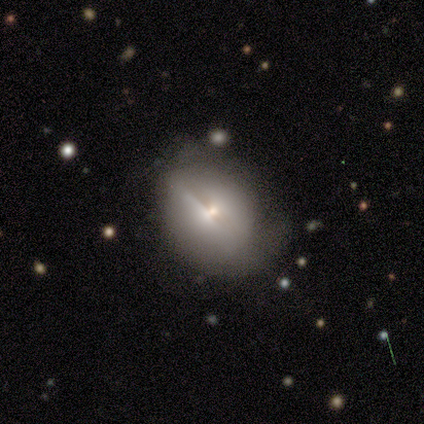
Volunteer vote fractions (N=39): Smooth or featured: smooth — 56% (featured or disk — 36%)
How rounded: round — 50% (in between — 45%)
Merging: none — 58% (major disturbance — 22%)